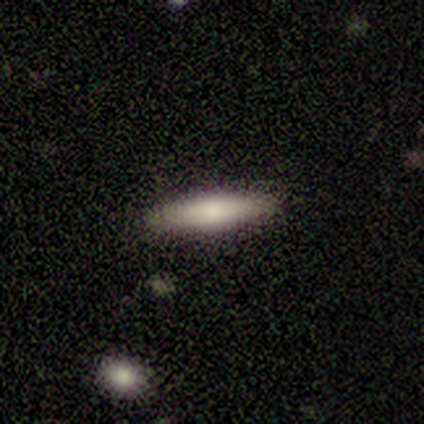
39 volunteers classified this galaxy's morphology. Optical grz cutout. It shows a smooth galaxy with no disk features (67%) that is cigar-shaped (77%). Merging: none (91%).